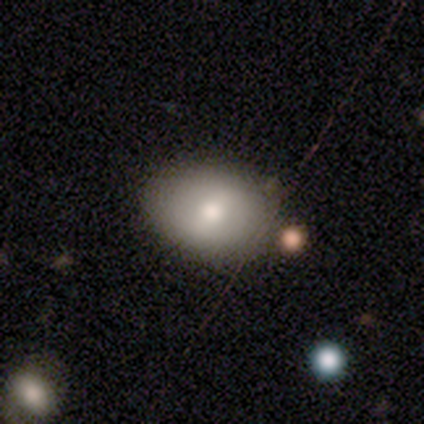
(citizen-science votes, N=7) smooth-or-featured: smooth: 71% | featured or disk: 29% | star or artifact: 0%
  how-rounded: in between: 100% | round: 0% | cigar-shaped: 0%
  merging: none: 86% | minor disturbance: 14% | major disturbance: 0% | merger: 0%